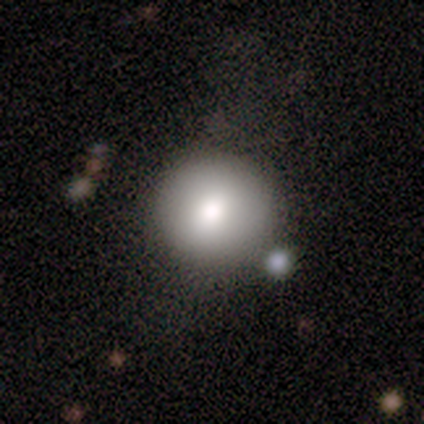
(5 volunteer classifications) This appears to be a smooth galaxy with no disk features (80%) that is round (100%). Merging: none (40%, tied with major disturbance).